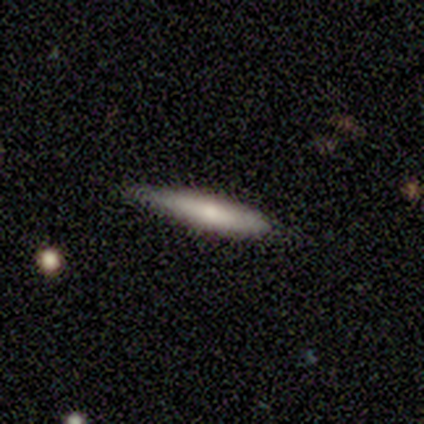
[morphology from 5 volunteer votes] This appears to be a smooth galaxy with no disk features (80%) that is cigar-shaped (100%). Merging: none (75%).